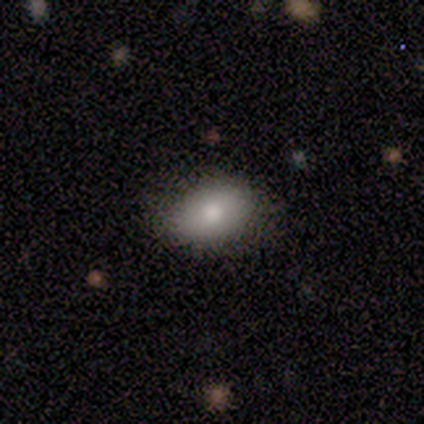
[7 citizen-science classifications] Smooth or featured?
  - smooth: 71% *
  - featured or disk: 14%
  - star or artifact: 14%
How rounded?
  - in between: 100% *
  - round: 0%
  - cigar-shaped: 0%
Merging?
  - none: 67% *
  - minor disturbance: 17%
  - major disturbance: 17%
  - merger: 0%